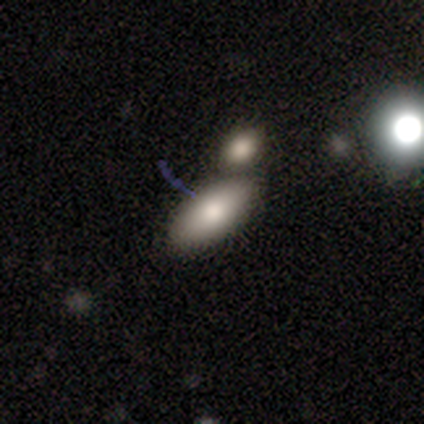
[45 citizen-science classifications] Smooth or featured? 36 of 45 (80%) said smooth. How rounded? 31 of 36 (86%) said in between. Merging? 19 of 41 (46%) said none.